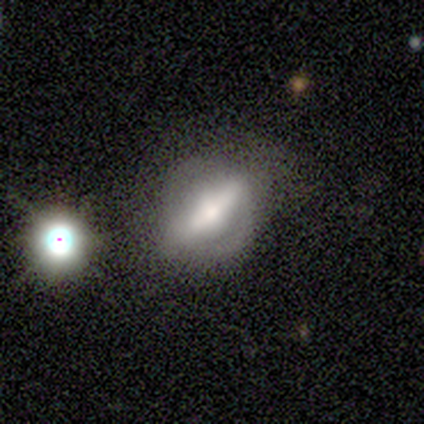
featured or disk 89%, star or artifact 11%, smooth 0%. Down the decision tree: edge-on disk — yes (50%, tied with no); edge-on bulge — rounded (100%); merging — none (62%).